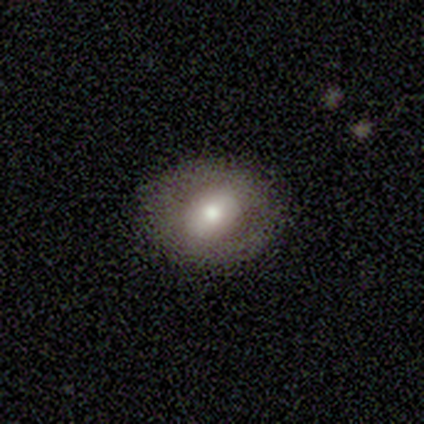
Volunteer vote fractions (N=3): smooth-or-featured: smooth: 67% | featured or disk: 33% | star or artifact: 0%
  how-rounded: in between: 100% | round: 0% | cigar-shaped: 0%
  merging: none: 67% | merger: 33% | minor disturbance: 0% | major disturbance: 0%